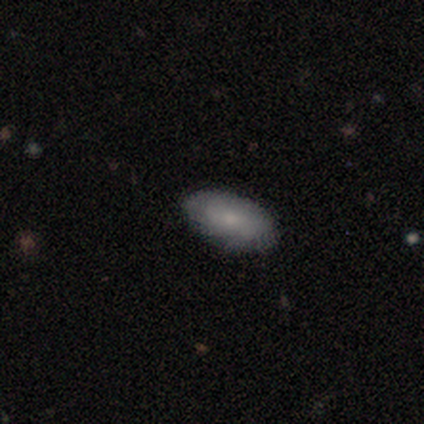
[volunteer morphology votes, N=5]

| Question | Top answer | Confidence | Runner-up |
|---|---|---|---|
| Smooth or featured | smooth | 60% | featured or disk (20%) |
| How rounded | in between | 100% | — |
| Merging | none | 75% | major disturbance (25%) |